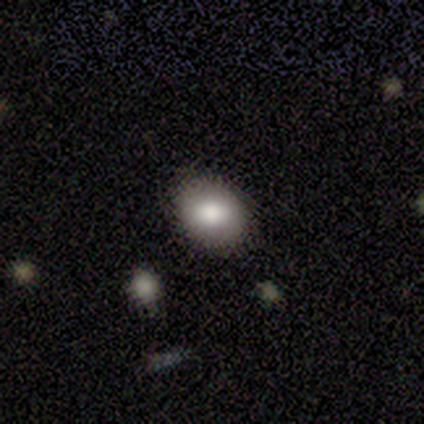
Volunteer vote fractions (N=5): Smooth or featured: smooth — 100%
How rounded: round — 60% (in between — 40%)
Merging: none — 80% (minor disturbance — 20%)